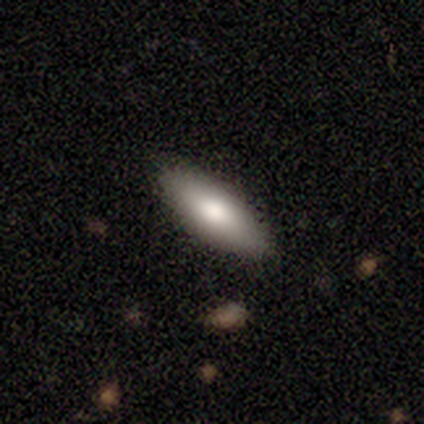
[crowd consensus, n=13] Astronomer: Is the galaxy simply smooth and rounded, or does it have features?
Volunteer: smooth — 85%.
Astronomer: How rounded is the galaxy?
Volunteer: in between — 64%.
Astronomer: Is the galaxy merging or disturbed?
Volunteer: none — 92%.